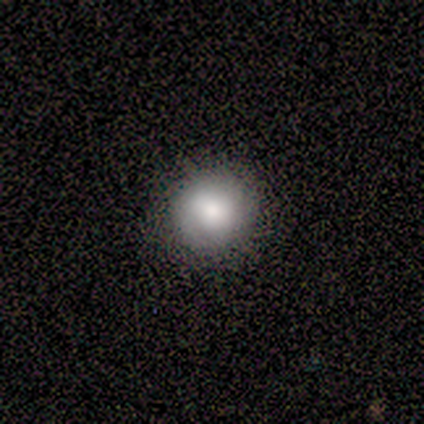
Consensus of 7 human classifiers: smooth-or-featured: smooth: 57% | featured or disk: 29% | star or artifact: 14%
  how-rounded: round: 100% | in between: 0% | cigar-shaped: 0%
  merging: none: 50% (tied) | minor disturbance: 50% (tied) | major disturbance: 0% | merger: 0%